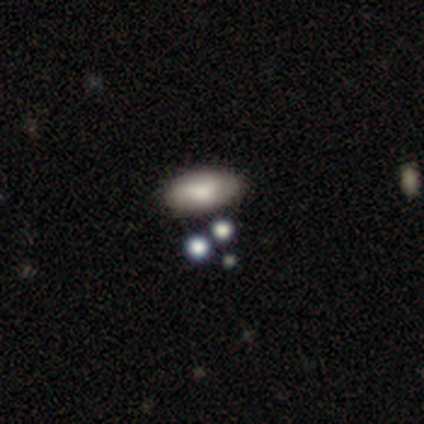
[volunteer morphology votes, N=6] smooth-or-featured: smooth: 67% | featured or disk: 17% | star or artifact: 17%
  how-rounded: in between: 100% | round: 0% | cigar-shaped: 0%
  merging: none: 80% | minor disturbance: 20% | major disturbance: 0% | merger: 0%